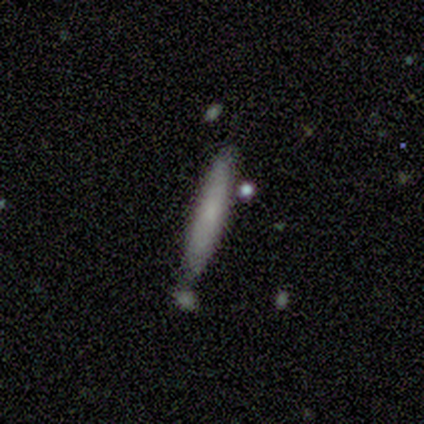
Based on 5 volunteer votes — Morphology: type=smooth (80%); roundness=cigar-shaped (100%); merging=none (60%).